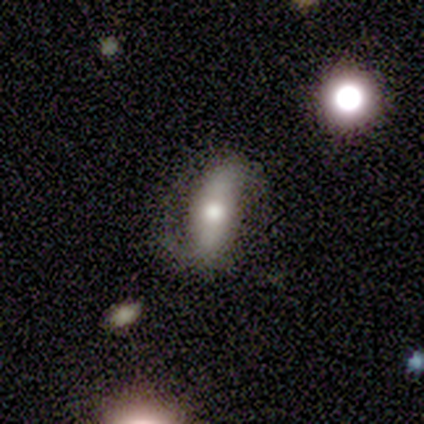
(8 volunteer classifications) Smooth or featured?
  - featured or disk: 75% *
  - smooth: 25%
  - star or artifact: 0%
Edge-on disk?
  - no: 67% *
  - yes: 33%
Bar?
  - strong: 50% *
  - weak: 25%
  - no: 25%
Spiral arms?
  - yes: 100% *
  - no: 0%
Spiral winding?
  - tight: 50% * (tied)
  - loose: 50% * (tied)
  - medium: 0%
Spiral arm count?
  - 2: 75% *
  - 1: 25%
  - 3: 0%
  - 4: 0%
  - more than 4: 0%
  - can't tell: 0%
Bulge size?
  - moderate: 50% *
  - large: 25%
  - small: 25%
  - dominant: 0%
  - none: 0%
Merging?
  - major disturbance: 50% *
  - none: 25%
  - minor disturbance: 12%
  - merger: 12%